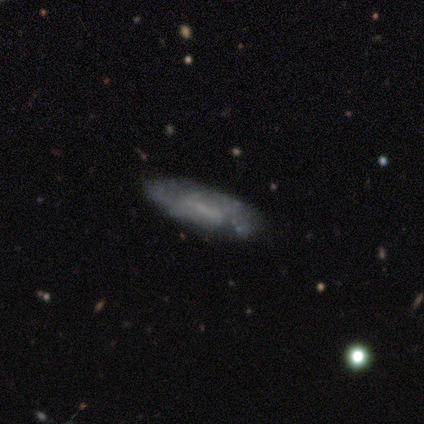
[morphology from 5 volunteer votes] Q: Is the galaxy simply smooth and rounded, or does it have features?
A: featured or disk — 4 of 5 (80%).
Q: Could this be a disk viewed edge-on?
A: no — 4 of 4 (100%).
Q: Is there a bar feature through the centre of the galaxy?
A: weak — 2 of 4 (50%, tied with no).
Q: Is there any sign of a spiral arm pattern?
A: yes — 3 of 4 (75%).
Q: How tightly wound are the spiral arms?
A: medium — 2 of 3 (67%).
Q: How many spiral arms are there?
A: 2 — 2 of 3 (67%).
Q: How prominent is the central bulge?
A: none — 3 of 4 (75%).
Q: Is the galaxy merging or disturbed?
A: none — 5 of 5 (100%).